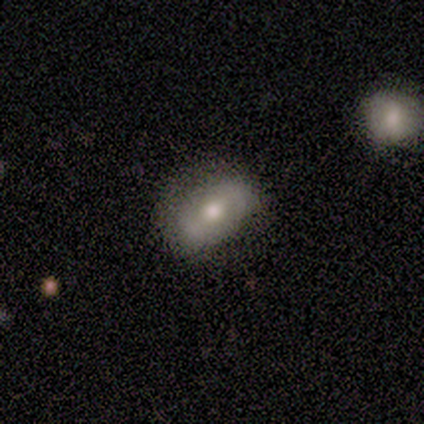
Overall: smooth (100%). How rounded: in between (80%). Merging: none (60%; minor disturbance 40%).